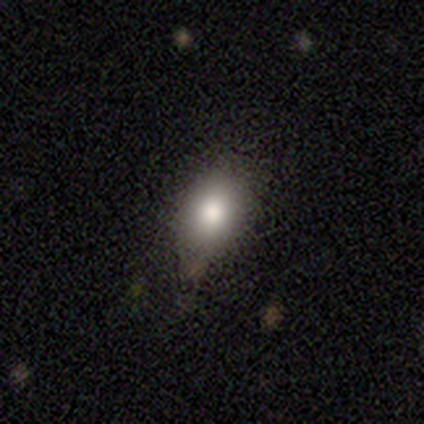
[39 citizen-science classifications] Overall: smooth (87%). How rounded: in between (74%). Merging: none (77%).